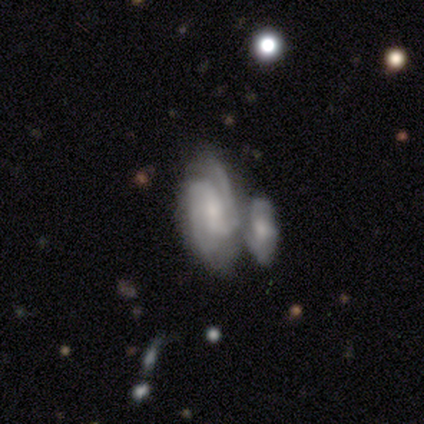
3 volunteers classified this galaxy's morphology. type=featured or disk (67%); edge-on=no (100%); bar=weak (100%); spiral arms=yes (100%); winding=tight (50%, tied with medium); arm count=2 (100%); bulge=moderate (50%, tied with small); merging=none (33%, tied with minor disturbance and merger).